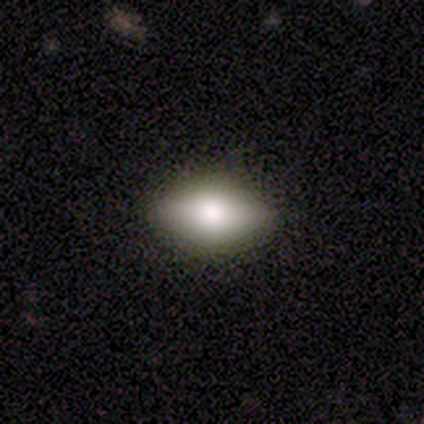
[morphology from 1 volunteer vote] Consensus on every question: smooth or featured — smooth (100%); how rounded — cigar-shaped (100%); merging — none (100%).